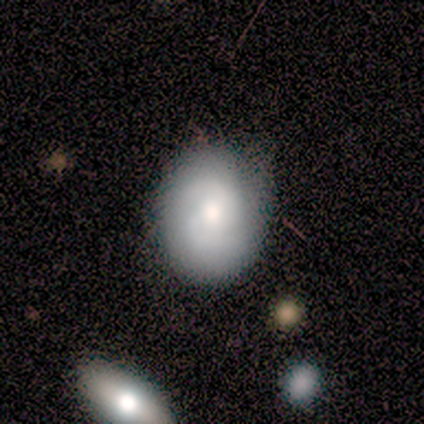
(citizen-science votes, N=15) This appears to be a featured or disk galaxy (53%) with no bar (62%), 2 (71%) tight (43%) spiral arms (88%) and a moderate central bulge (62%). Merging: none (64%).